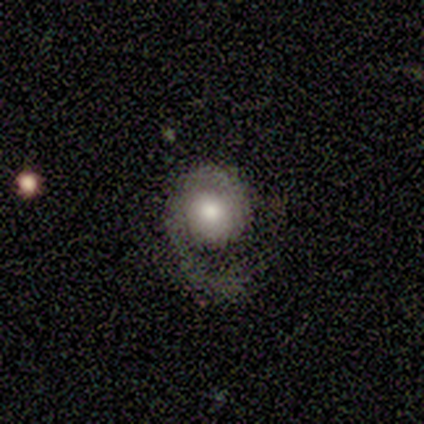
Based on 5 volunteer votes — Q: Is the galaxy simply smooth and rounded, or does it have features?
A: featured or disk — 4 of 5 (80%).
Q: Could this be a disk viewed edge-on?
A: no — 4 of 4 (100%).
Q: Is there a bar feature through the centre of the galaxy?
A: no — 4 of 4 (100%).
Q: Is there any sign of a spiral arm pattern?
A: yes — 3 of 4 (75%).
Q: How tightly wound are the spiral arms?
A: tight — 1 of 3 (33%, tied with medium and loose).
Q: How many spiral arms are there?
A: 1 — 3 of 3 (100%).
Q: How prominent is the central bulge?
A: large — 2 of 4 (50%, tied with moderate).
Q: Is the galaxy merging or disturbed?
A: none — 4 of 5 (80%).